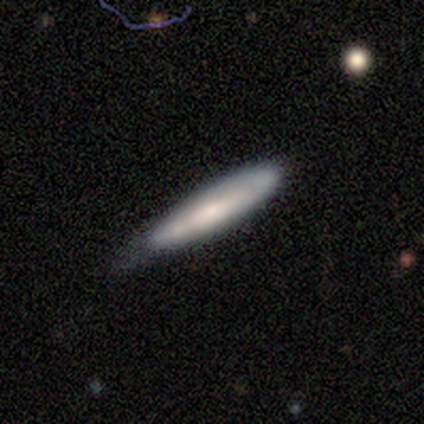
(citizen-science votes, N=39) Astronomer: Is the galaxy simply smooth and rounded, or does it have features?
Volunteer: smooth — 51% (runner-up: featured or disk, 46%).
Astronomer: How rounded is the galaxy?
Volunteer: cigar-shaped — 85%.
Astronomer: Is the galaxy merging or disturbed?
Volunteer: none — 71%.